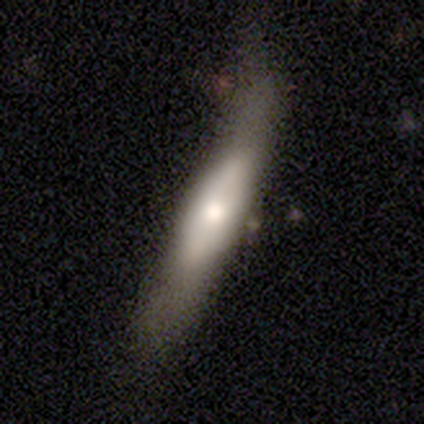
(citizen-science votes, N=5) Smooth or featured: smooth — 40% (tied with featured or disk — 40%)
How rounded: cigar-shaped — 100%
Merging: none — 50% (minor disturbance — 25%)